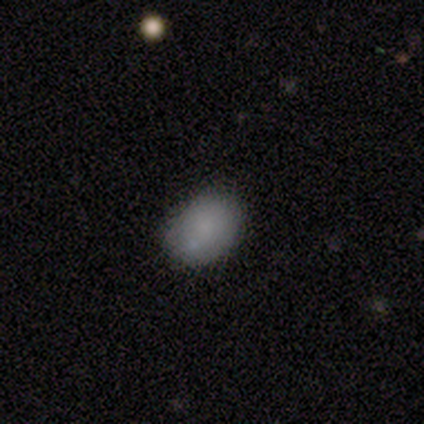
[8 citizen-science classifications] Morphology: type=smooth (100%); roundness=in between (62%); merging=none (75%).